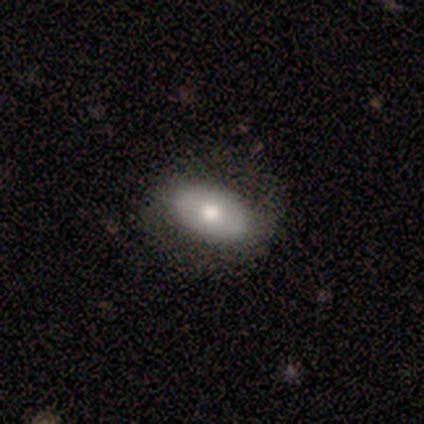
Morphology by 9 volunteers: smooth-or-featured: smooth: 78% | featured or disk: 11% | star or artifact: 11%
  how-rounded: in between: 100% | round: 0% | cigar-shaped: 0%
  merging: none: 62% | minor disturbance: 25% | major disturbance: 12% | merger: 0%